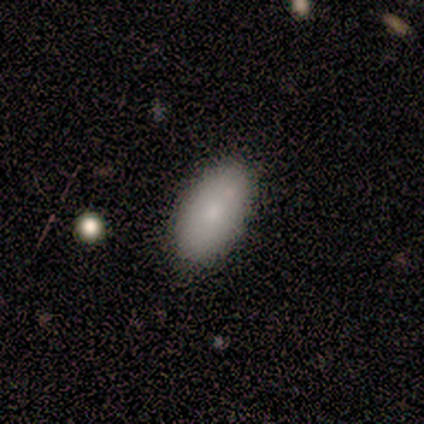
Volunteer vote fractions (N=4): Overall: smooth (50%, tied with featured or disk). How rounded: in between (100%). Merging: none (75%).